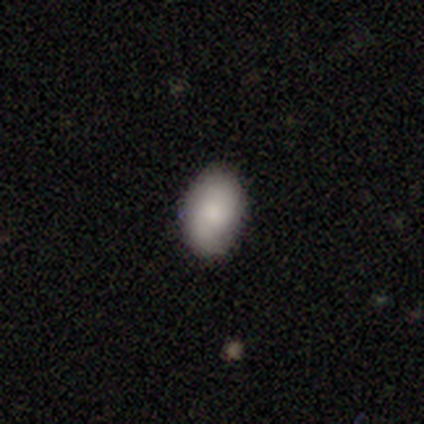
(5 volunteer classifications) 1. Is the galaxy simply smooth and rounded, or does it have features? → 60% smooth, 20% featured or disk, 20% star or artifact.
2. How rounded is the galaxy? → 100% in between, 0% round, 0% cigar-shaped.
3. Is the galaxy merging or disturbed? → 75% minor disturbance, 25% none, 0% major disturbance, 0% merger.